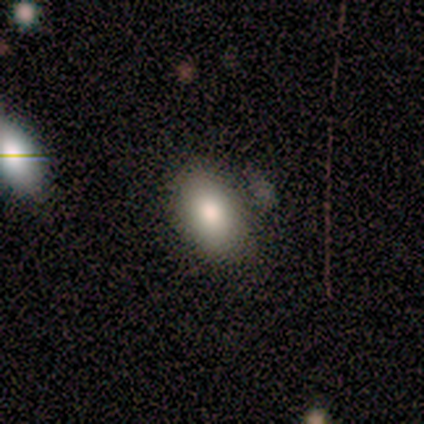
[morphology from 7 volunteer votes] Q: Smooth or featured?
A: smooth (71%); runner-up: featured or disk (29%)
Q: How rounded?
A: in between (100%)
Q: Merging?
A: none (100%)